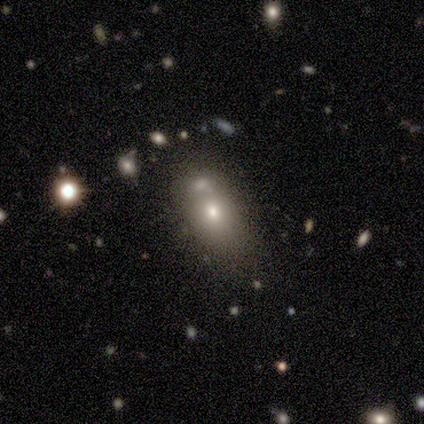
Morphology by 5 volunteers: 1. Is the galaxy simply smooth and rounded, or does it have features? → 60% smooth, 20% featured or disk, 20% star or artifact.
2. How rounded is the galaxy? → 67% in between, 33% round, 0% cigar-shaped.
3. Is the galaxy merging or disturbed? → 75% none, 25% merger, 0% minor disturbance, 0% major disturbance.